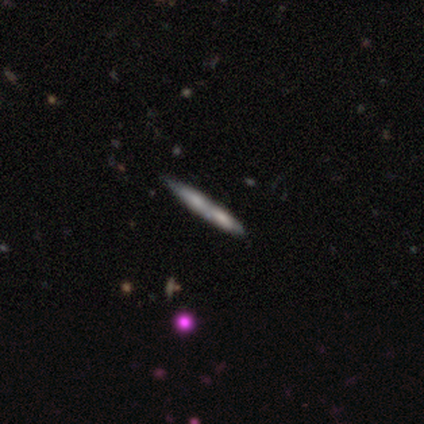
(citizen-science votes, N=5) A smooth galaxy with no disk features (60%) that is cigar-shaped (100%). Merging: merger (60%).